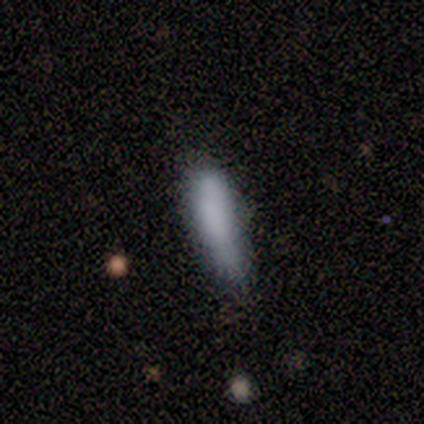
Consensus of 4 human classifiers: Volunteers were most divided on "merging" (2-way tie): none: 50%, minor disturbance: 50%, major disturbance: 0%, merger: 0%. More confident: how rounded — cigar-shaped (100%); smooth or featured — smooth (75%).